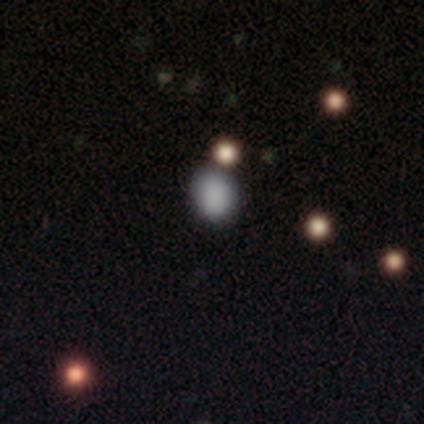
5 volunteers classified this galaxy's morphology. This appears to be a smooth galaxy with no disk features (80%) that is round (100%). Merging: none (40%, tied with merger).